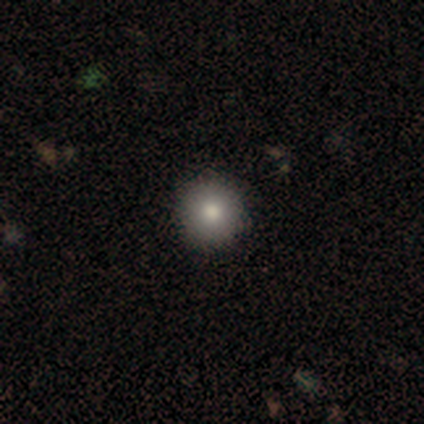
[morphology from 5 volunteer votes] Consensus on every question: smooth or featured — smooth (100%); how rounded — round (100%); merging — none (100%).